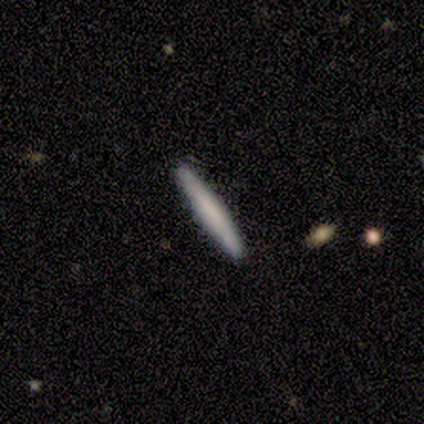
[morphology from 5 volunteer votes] smooth_or_featured: smooth (p=0.80) [alt: featured or disk p=0.20]
how_rounded: cigar-shaped (p=1.00)
merging: none (p=1.00)